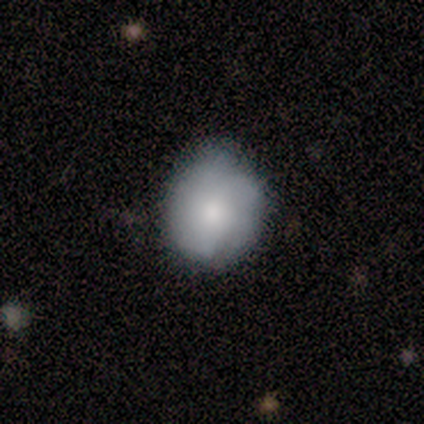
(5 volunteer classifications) Volunteers were most divided on "merging": none: 60%, minor disturbance: 40%, major disturbance: 0%, merger: 0%. More confident: smooth or featured — smooth (80%); how rounded — round (75%).